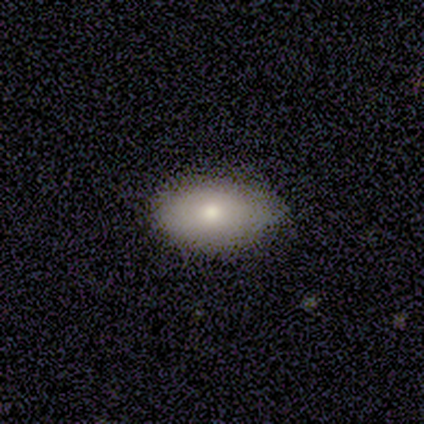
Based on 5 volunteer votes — smooth-or-featured: smooth: 80% | featured or disk: 20% | star or artifact: 0%
  how-rounded: in between: 100% | round: 0% | cigar-shaped: 0%
  merging: none: 80% | minor disturbance: 20% | major disturbance: 0% | merger: 0%